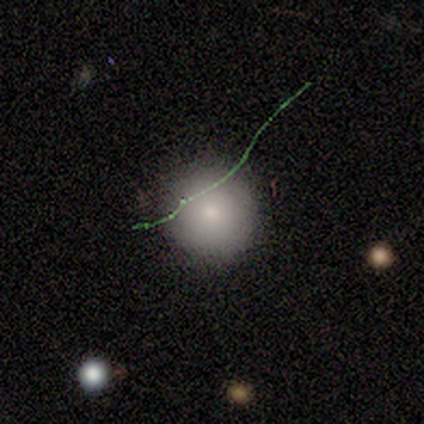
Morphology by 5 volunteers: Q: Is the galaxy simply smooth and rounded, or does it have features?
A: smooth — 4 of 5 (80%).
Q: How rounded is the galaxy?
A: round — 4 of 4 (100%).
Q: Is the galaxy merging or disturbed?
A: none — 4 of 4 (100%).